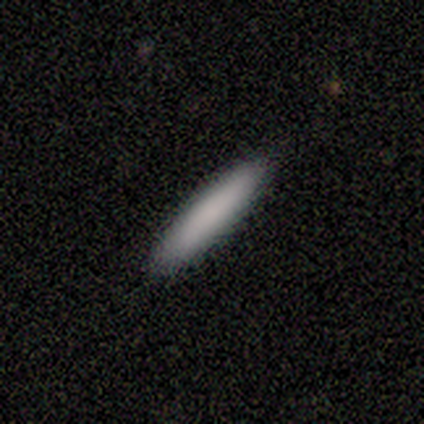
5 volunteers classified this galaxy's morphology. This is clearly a smooth galaxy (80%). How rounded: clearly cigar-shaped (100%). Merging: likely none (75%).